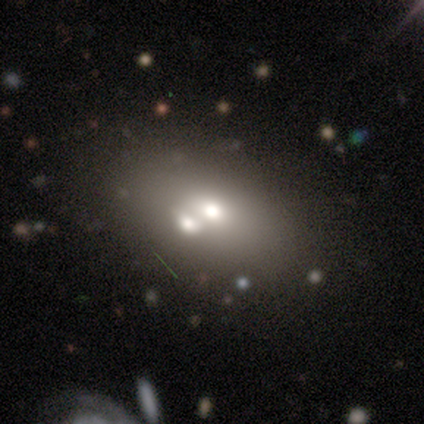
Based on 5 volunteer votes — Smooth or featured? 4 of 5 (80%) said featured or disk. Edge-on disk? 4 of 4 (100%) said no. Bar? 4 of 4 (100%) said no. Spiral arms? 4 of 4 (100%) said no. Bulge size? 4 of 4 (100%) said moderate. Merging? 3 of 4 (75%) said merger.